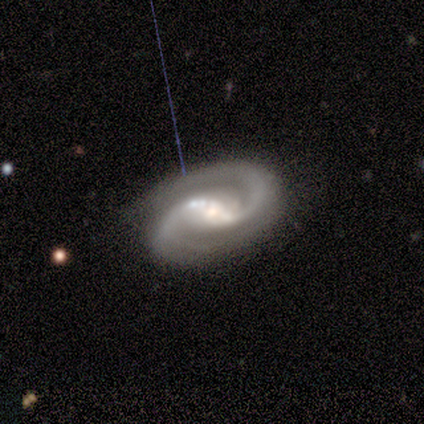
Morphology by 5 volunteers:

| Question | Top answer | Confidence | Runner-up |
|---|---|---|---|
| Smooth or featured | featured or disk | 100% | — |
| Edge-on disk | no | 100% | — |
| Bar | weak | 60% | strong (20%) |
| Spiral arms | yes | 100% | — |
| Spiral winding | tight | 40% | tied: loose (40%) |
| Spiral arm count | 2 | 100% | — |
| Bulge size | moderate | 60% | large (20%) |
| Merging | none | 60% | minor disturbance (40%) |